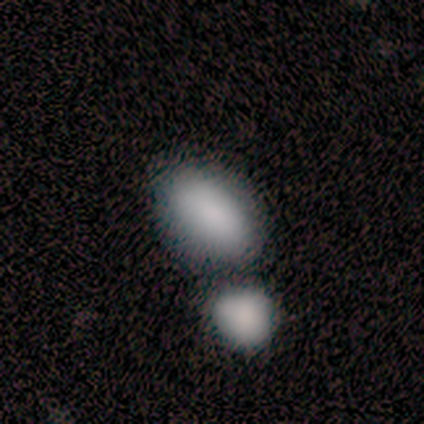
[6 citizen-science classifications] Q: Smooth or featured?
A: smooth (67%); runner-up: featured or disk (33%)
Q: How rounded?
A: in between (100%)
Q: Merging?
A: none (33%); tied with: merger (33%)